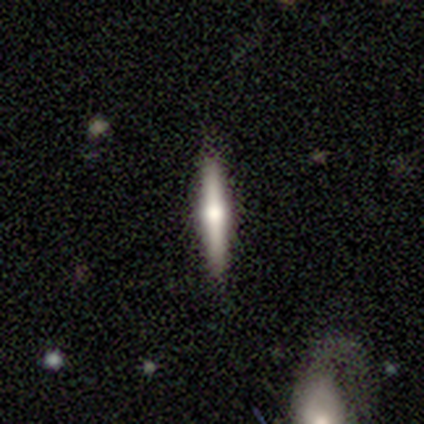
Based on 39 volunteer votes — Overall: featured or disk (56%; smooth 38%). Edge-on disk: yes (100%). Edge-on bulge: rounded (100%). Merging: none (92%).